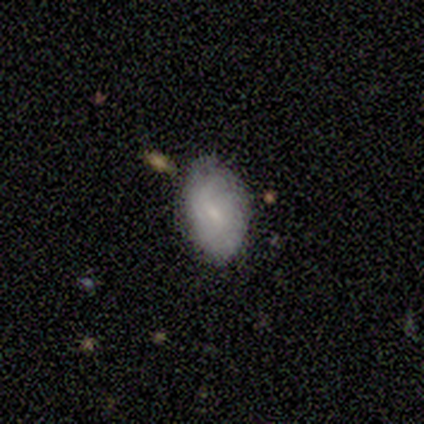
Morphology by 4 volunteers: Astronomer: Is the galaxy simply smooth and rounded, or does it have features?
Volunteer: smooth — 100%.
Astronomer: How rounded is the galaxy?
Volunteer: in between — 100%.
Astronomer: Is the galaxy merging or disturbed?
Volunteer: none — 50%, tied with minor disturbance at 50%.